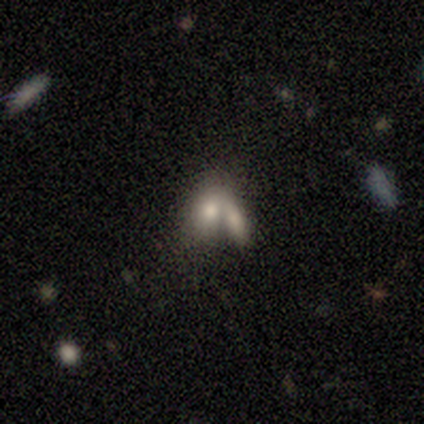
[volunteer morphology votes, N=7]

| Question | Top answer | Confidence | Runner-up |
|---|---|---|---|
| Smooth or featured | smooth | 71% | star or artifact (29%) |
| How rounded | in between | 80% | round (20%) |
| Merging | merger | 80% | none (20%) |